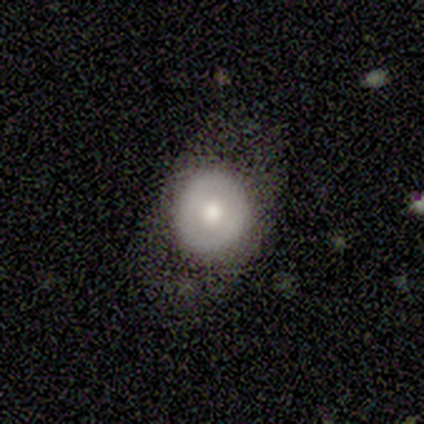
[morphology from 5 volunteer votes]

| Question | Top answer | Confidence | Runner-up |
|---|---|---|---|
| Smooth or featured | featured or disk | 60% | smooth (20%) |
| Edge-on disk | no | 100% | — |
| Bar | no | 100% | — |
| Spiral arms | no | 100% | — |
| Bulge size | moderate | 100% | — |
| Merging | none | 50% | tied: minor disturbance (50%) |